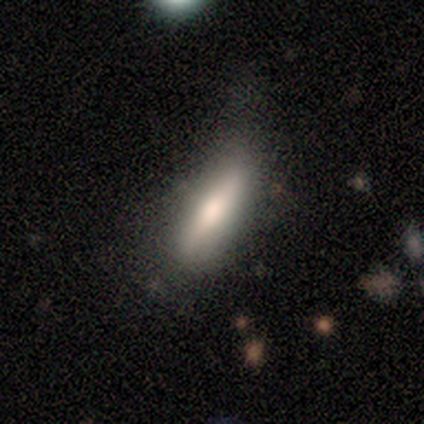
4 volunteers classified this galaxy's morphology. Smooth or featured: smooth — 50% (featured or disk — 25%)
How rounded: in between — 50% (tied with cigar-shaped — 50%)
Merging: none — 67% (minor disturbance — 33%)